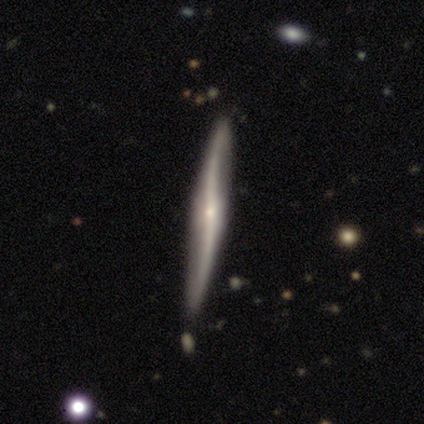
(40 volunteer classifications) Morphology: type=featured or disk (82%); edge-on=yes (94%); edge-on bulge=rounded (71%); merging=none (79%).